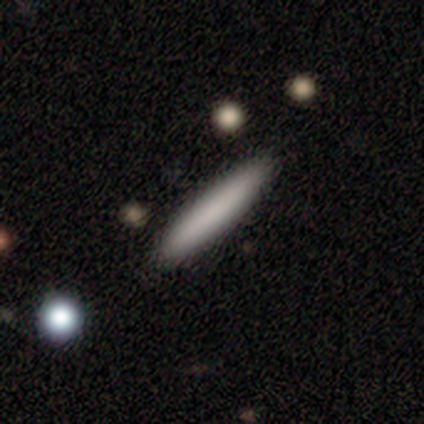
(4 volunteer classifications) Smooth or featured? 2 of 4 (50%) said smooth. How rounded? 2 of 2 (100%) said cigar-shaped. Merging? 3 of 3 (100%) said none.